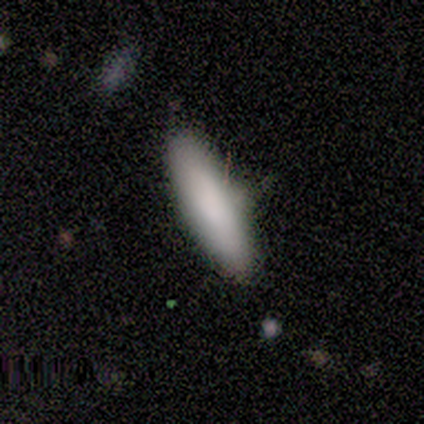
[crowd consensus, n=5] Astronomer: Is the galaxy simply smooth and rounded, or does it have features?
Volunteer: smooth — 100%.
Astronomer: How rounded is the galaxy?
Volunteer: in between — 80%.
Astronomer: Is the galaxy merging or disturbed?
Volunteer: none — 100%.